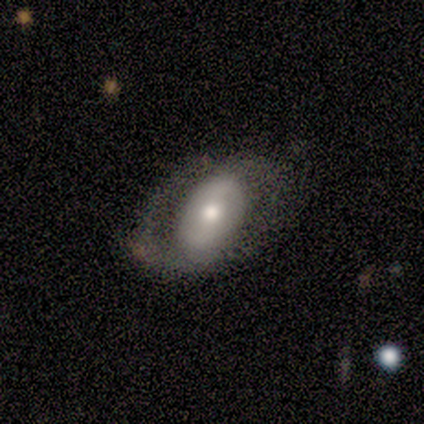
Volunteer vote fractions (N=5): Overall: featured or disk (80%). Edge-on disk: no (100%). Bar: weak (50%; strong 25%). Spiral arms: yes (100%). Spiral arm count: 2 (100%). Spiral winding: medium (75%). Bulge size: moderate (75%). Merging: none (80%).